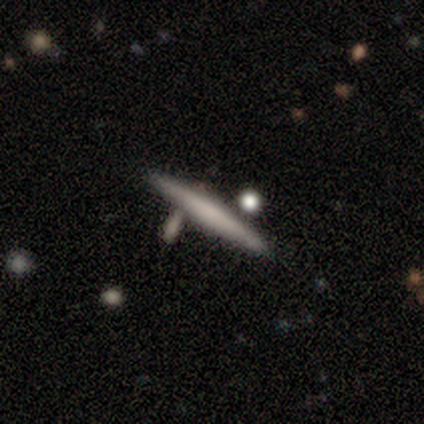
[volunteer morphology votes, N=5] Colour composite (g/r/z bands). It shows a smooth galaxy with no disk features (80%) that is cigar-shaped (100%). Merging: none (80%).